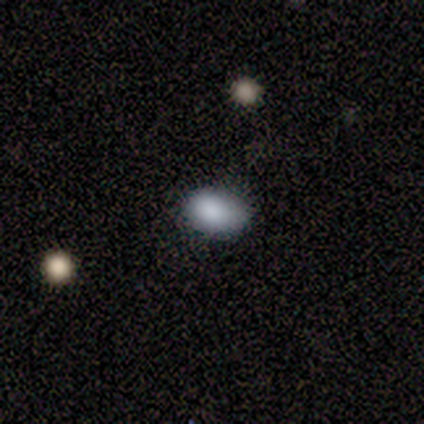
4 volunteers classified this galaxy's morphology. smooth-or-featured: smooth: 75% | featured or disk: 25% | star or artifact: 0%
  how-rounded: in between: 100% | round: 0% | cigar-shaped: 0%
  merging: none: 75% | minor disturbance: 25% | major disturbance: 0% | merger: 0%